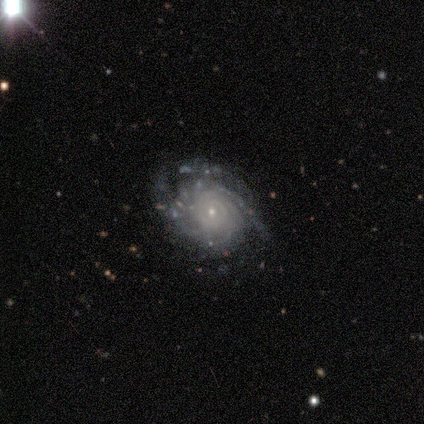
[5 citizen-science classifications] Smooth or featured? 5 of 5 (100%) said featured or disk. Edge-on disk? 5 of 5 (100%) said no. Bar? 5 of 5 (100%) said no. Spiral arms? 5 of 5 (100%) said yes. Spiral winding? 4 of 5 (80%) said tight. Spiral arm count? 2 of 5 (40%) said can't tell. Bulge size? 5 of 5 (100%) said small. Merging? 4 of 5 (80%) said none.